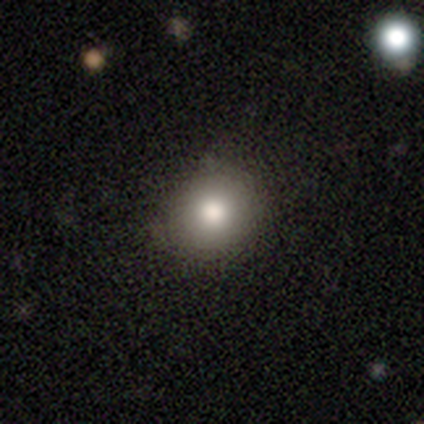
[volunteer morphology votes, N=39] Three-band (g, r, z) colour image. It shows a smooth galaxy with no disk features (79%) that is round (90%). Merging: none (63%).